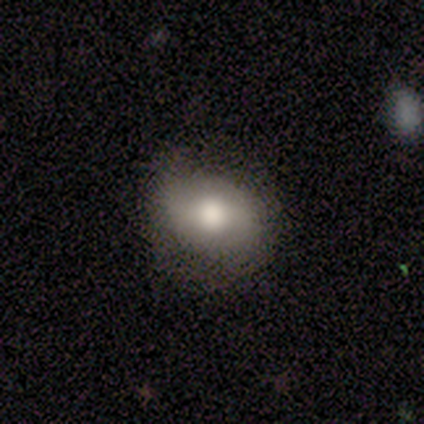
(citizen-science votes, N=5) This is likely a smooth galaxy (60%). How rounded: likely in between (67%). Merging: clearly none (80%).